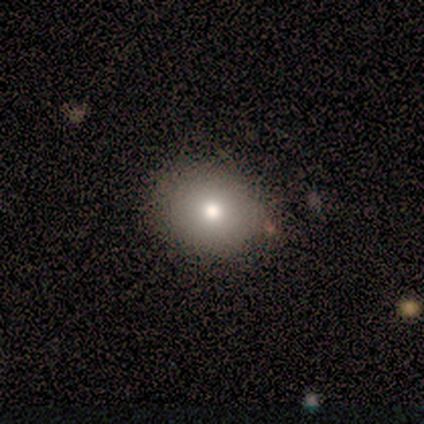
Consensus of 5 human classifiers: Smooth or featured: smooth — 100%
How rounded: round — 80% (in between — 20%)
Merging: none — 100%